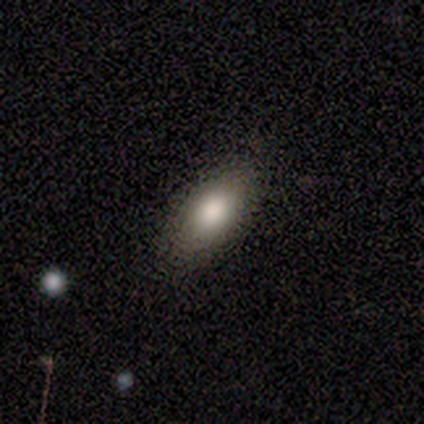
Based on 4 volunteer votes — Q: Smooth or featured?
A: smooth (75%); runner-up: featured or disk (25%)
Q: How rounded?
A: in between (67%); runner-up: cigar-shaped (33%)
Q: Merging?
A: none (75%); runner-up: minor disturbance (25%)